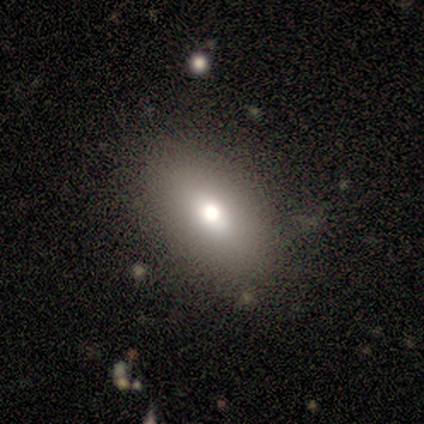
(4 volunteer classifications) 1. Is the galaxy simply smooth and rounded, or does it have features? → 100% smooth, 0% featured or disk, 0% star or artifact.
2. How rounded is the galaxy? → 100% in between, 0% round, 0% cigar-shaped.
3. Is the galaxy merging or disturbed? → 100% none, 0% minor disturbance, 0% major disturbance, 0% merger.